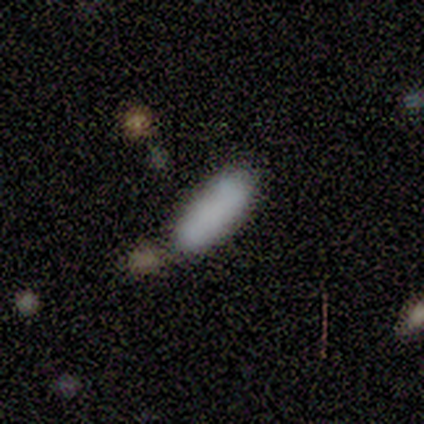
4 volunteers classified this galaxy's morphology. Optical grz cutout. It shows a smooth galaxy with no disk features (75%) that is in between round and cigar-shaped (67%). Merging: none (75%).